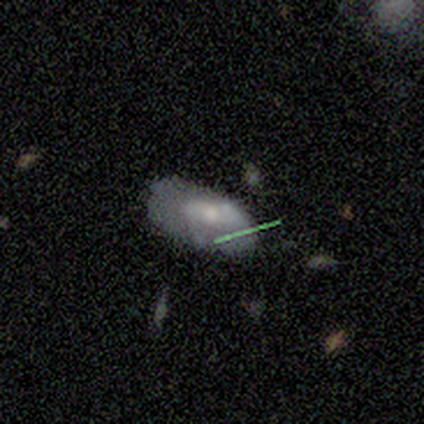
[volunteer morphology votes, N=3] Smooth or featured? smooth (33%, tied with featured or disk and star or artifact)
How rounded? in between (100%)
Merging? none (50%, tied with major disturbance)